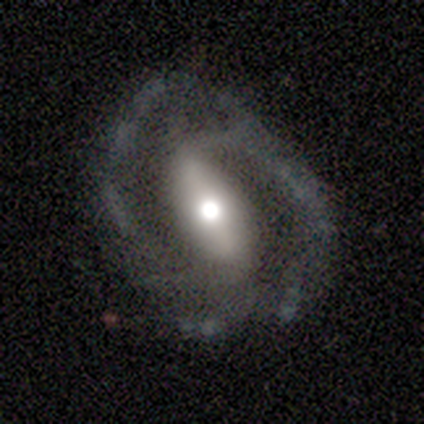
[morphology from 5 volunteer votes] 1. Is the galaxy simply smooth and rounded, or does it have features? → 100% featured or disk, 0% smooth, 0% star or artifact.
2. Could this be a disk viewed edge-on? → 100% no, 0% yes.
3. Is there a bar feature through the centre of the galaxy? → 80% strong, 20% no, 0% weak.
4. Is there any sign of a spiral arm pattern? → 100% yes, 0% no.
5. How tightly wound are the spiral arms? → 40% tight (tied), 40% loose (tied), 20% medium.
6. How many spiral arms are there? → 100% 2, 0% 1, 0% 3, 0% 4, 0% more than 4, 0% can't tell.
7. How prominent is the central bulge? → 60% large, 40% moderate, 0% dominant, 0% small, 0% none.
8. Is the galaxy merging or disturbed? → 60% none, 20% minor disturbance, 20% major disturbance, 0% merger.